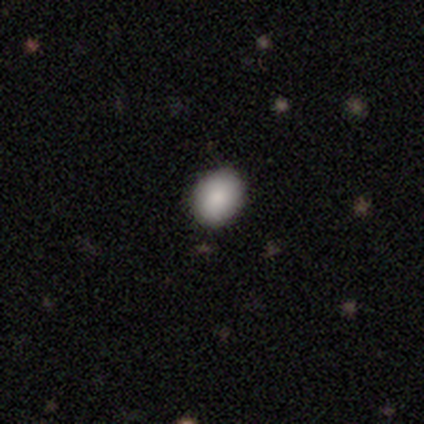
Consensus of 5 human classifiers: Smooth or featured? 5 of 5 (100%) said smooth. How rounded? 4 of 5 (80%) said round. Merging? 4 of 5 (80%) said none.